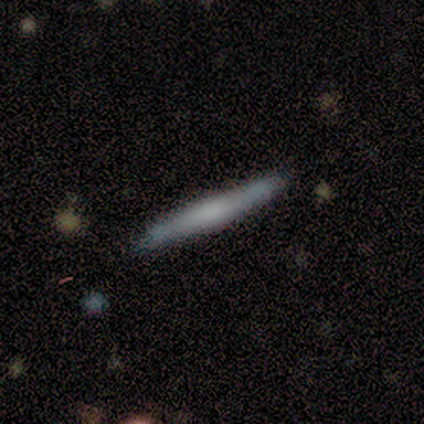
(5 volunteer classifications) Q: Smooth or featured?
A: featured or disk (60%); runner-up: smooth (40%)
Q: Edge-on disk?
A: yes (100%)
Q: Edge-on bulge?
A: rounded (67%); runner-up: none (33%)
Q: Merging?
A: none (100%)